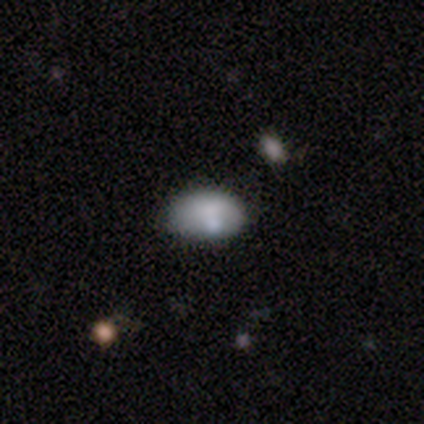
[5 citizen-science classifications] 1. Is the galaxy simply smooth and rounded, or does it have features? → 80% smooth, 20% featured or disk, 0% star or artifact.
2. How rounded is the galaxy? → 100% in between, 0% round, 0% cigar-shaped.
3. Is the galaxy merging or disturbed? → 80% none, 20% minor disturbance, 0% major disturbance, 0% merger.